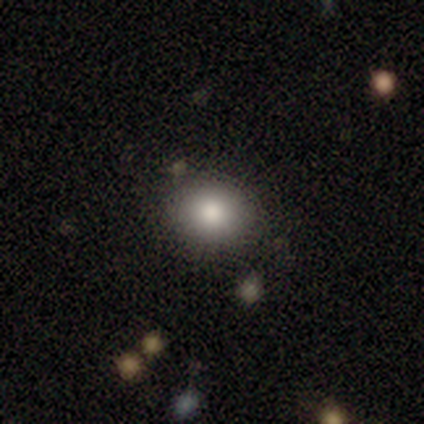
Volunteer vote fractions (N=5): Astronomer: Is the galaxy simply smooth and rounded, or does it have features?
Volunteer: smooth — 80%.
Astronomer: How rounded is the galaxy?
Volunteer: round — 75%.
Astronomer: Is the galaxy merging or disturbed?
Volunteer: none — 80%.